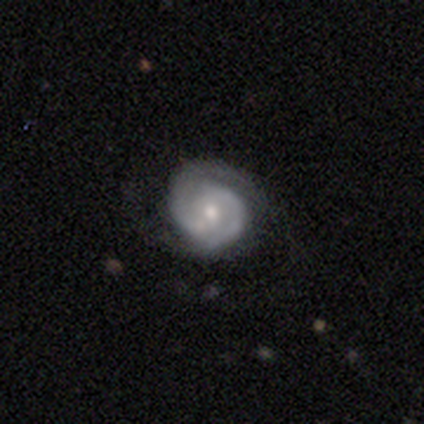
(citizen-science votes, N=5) Overall: featured or disk (100%). Edge-on disk: no (100%). Bar: no (100%). Spiral arms: yes (100%). Spiral arm count: 2 (100%). Spiral winding: medium (60%; tight 40%). Bulge size: small (60%; moderate 40%). Merging: none (80%).